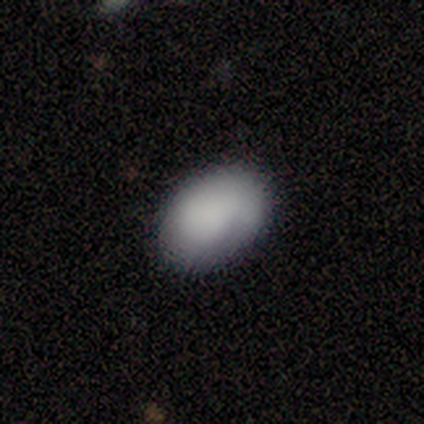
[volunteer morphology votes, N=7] This is likely a smooth galaxy (71%). How rounded: clearly in between (100%). Merging: clearly none (100%).